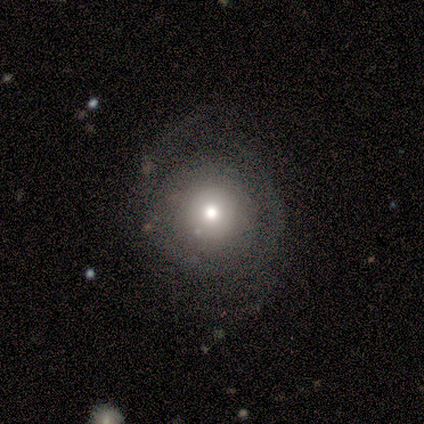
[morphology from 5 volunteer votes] Volunteers were most divided on "smooth or featured": smooth: 80%, featured or disk: 20%, star or artifact: 0%. More confident: how rounded — round (100%); merging — none (80%).